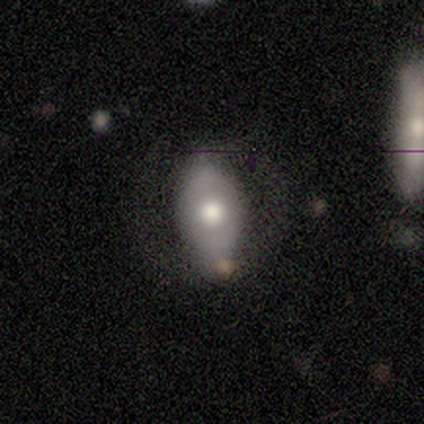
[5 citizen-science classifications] Smooth or featured?
  - smooth: 60% *
  - featured or disk: 40%
  - star or artifact: 0%
How rounded?
  - in between: 100% *
  - round: 0%
  - cigar-shaped: 0%
Merging?
  - none: 60% *
  - minor disturbance: 20%
  - merger: 20%
  - major disturbance: 0%